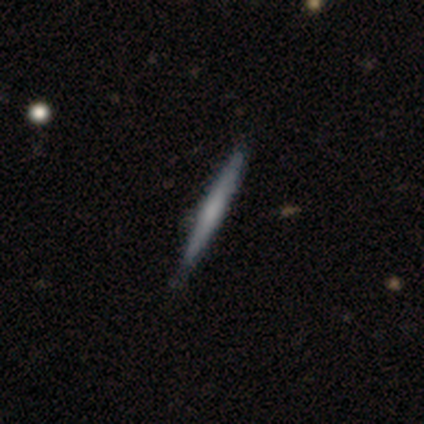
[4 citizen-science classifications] smooth 50% (tied), featured or disk 50% (tied), star or artifact 0%. Down the decision tree: how rounded — cigar-shaped (100%); merging — none (100%).